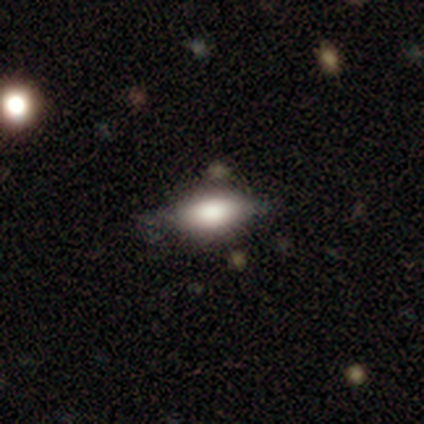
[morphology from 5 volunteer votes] A smooth galaxy with no disk features (100%) that is in between round and cigar-shaped (60%).

Vote fractions:
- Smooth or featured? smooth: 100% / featured or disk: 0% / star or artifact: 0%
- How rounded? in between: 60% / cigar-shaped: 40% / round: 0%
- Merging? none: 60% / minor disturbance: 40% / major disturbance: 0% / merger: 0%